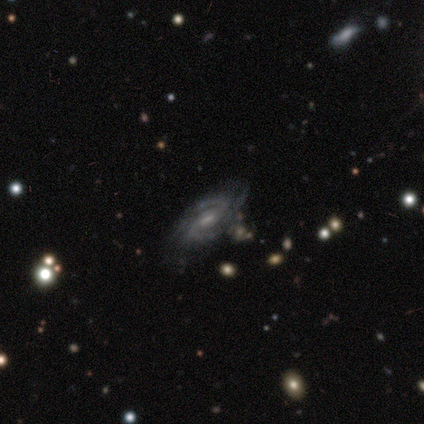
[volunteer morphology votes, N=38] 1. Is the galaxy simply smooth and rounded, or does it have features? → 92% featured or disk, 5% star or artifact, 3% smooth.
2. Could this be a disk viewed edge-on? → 100% no, 0% yes.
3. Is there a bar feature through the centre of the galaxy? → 74% weak, 14% strong, 11% no.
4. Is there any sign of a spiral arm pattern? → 94% yes, 6% no.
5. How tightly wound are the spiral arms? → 48% medium, 45% tight, 6% loose.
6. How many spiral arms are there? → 55% 2, 21% 3, 15% can't tell, 6% 4, 3% 1, 0% more than 4.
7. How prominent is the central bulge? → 51% small, 31% moderate, 11% none, 3% dominant, 3% large.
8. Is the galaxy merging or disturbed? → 75% none, 17% minor disturbance, 6% merger, 3% major disturbance.